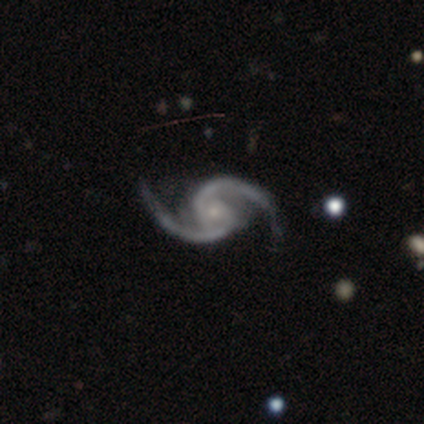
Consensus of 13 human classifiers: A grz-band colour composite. It shows a featured or disk galaxy (85%) with no bar (82%), 2 (82%) medium (64%) spiral arms (100%) and a small central bulge (64%). Merging: none (73%).